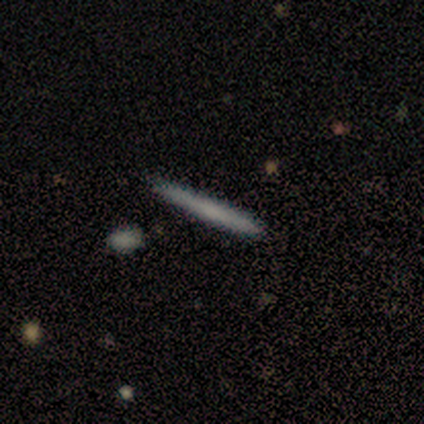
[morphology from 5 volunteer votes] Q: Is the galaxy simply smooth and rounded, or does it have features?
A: smooth — 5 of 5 (100%).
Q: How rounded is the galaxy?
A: cigar-shaped — 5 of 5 (100%).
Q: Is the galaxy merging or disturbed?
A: none — 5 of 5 (100%).